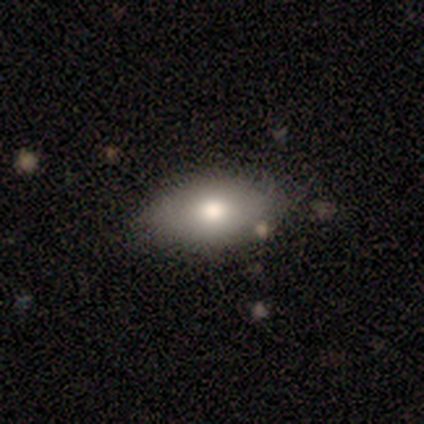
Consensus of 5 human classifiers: A smooth galaxy with no disk features (60%) that is in between round and cigar-shaped (100%). Merging: none (100%).